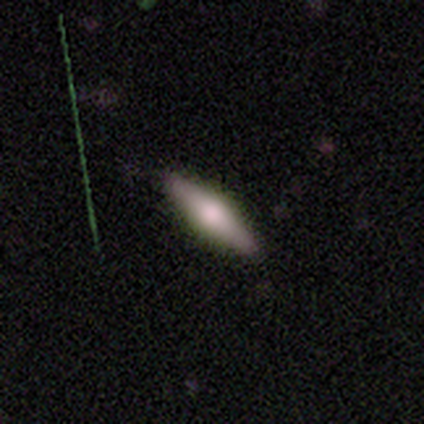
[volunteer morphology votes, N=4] Overall: smooth (75%). How rounded: cigar-shaped (67%; in between 33%). Merging: none (50%, tied with minor disturbance).